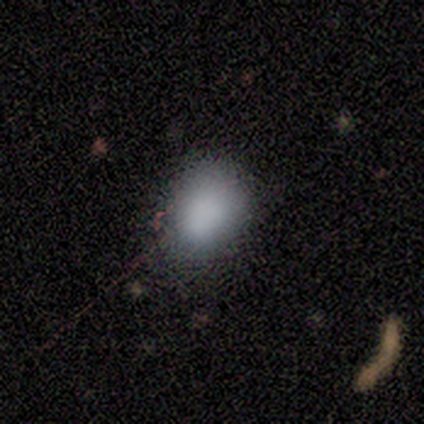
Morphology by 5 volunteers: Smooth or featured: smooth — 80% (star or artifact — 20%)
How rounded: in between — 100%
Merging: none — 100%